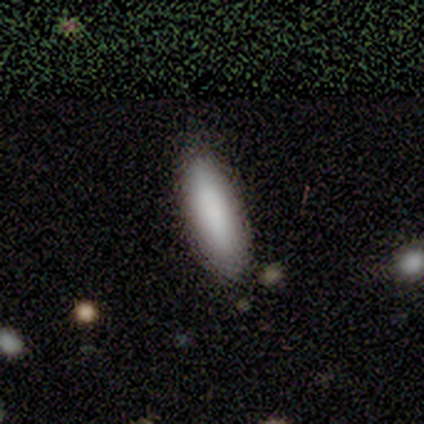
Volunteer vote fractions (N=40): Smooth or featured? smooth (78%)
How rounded? in between (65%)
Merging? none (70%)